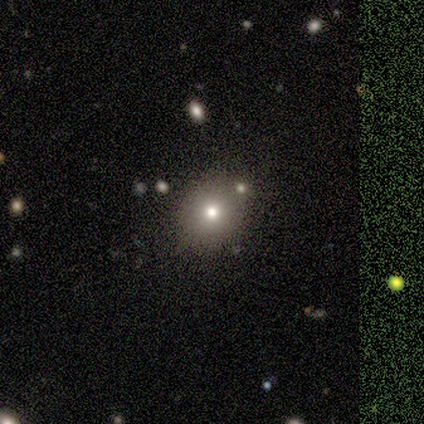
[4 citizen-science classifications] Smooth or featured?
  - star or artifact: 50% *
  - smooth: 25%
  - featured or disk: 25%